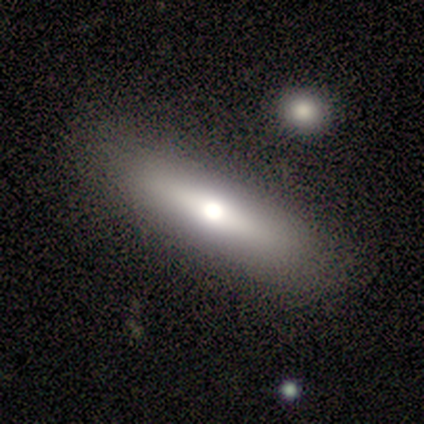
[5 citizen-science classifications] Smooth or featured: smooth — 60% (featured or disk — 40%)
How rounded: cigar-shaped — 100%
Merging: none — 80% (minor disturbance — 20%)